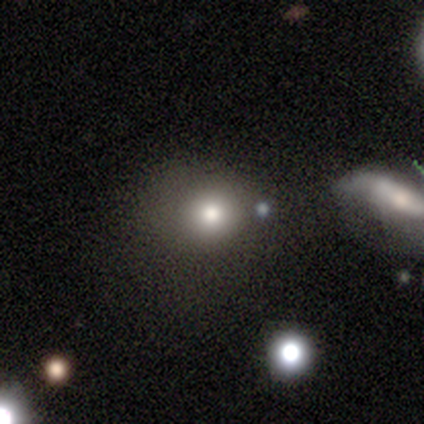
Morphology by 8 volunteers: This is clearly a smooth galaxy (88%). How rounded: likely round (71%). Merging: likely none (75%).